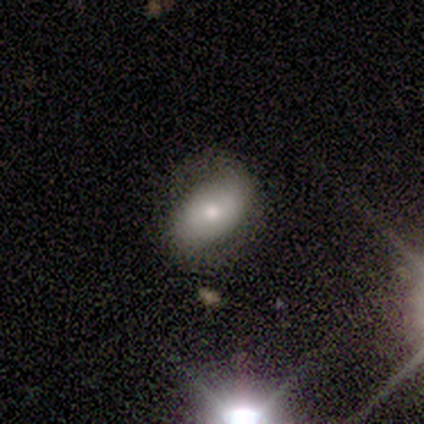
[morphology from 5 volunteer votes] A smooth galaxy with no disk features (60%) that is in between round and cigar-shaped (100%).

Vote fractions:
- Smooth or featured? smooth: 60% / featured or disk: 40% / star or artifact: 0%
- How rounded? in between: 100% / round: 0% / cigar-shaped: 0%
- Merging? none: 80% / minor disturbance: 20% / major disturbance: 0% / merger: 0%